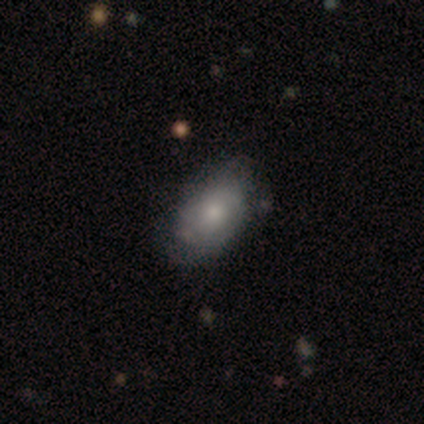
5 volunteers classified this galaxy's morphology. smooth-or-featured: smooth: 60% | featured or disk: 40% | star or artifact: 0%
  how-rounded: in between: 100% | round: 0% | cigar-shaped: 0%
  merging: none: 60% | minor disturbance: 40% | major disturbance: 0% | merger: 0%